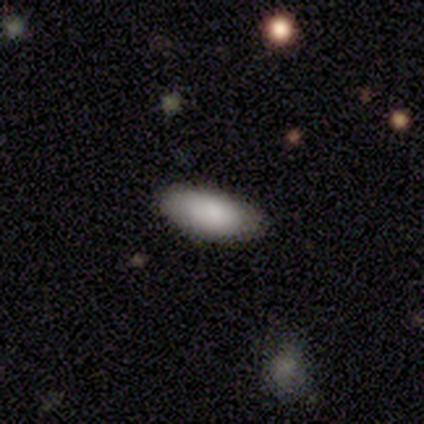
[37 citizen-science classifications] This is clearly a smooth galaxy (89%). How rounded: likely in between (79%). Merging: clearly none (88%).